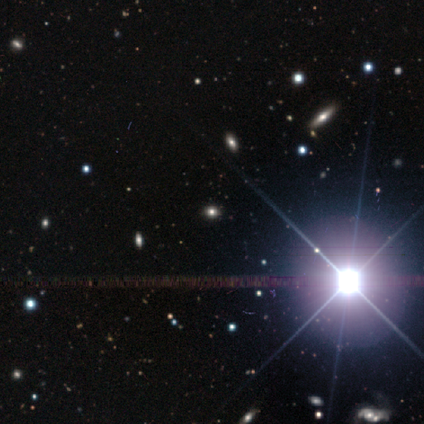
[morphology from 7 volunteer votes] type=star or artifact (86%).